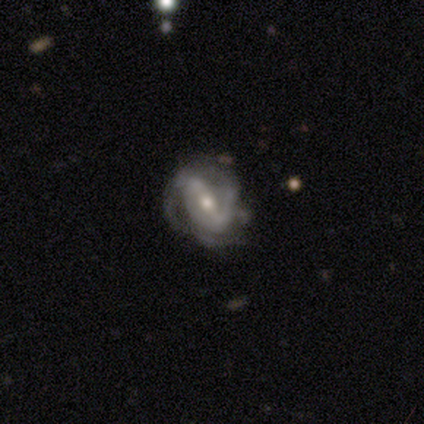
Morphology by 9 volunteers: Overall: featured or disk (89%). Edge-on disk: no (100%). Bar: strong (62%; weak 38%). Spiral arms: yes (100%). Spiral arm count: 2 (88%). Spiral winding: medium (88%). Bulge size: moderate (88%). Merging: minor disturbance (56%; none 44%).